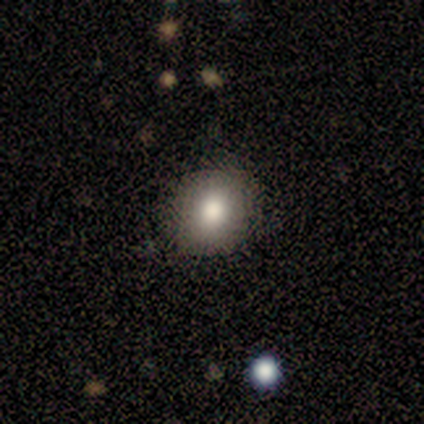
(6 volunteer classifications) Smooth or featured? smooth (83%)
How rounded? round (100%)
Merging? none (80%)